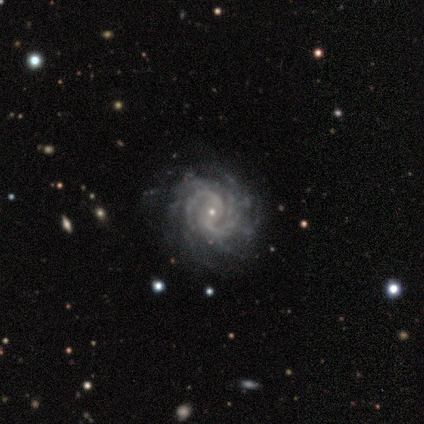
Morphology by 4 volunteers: A featured or disk galaxy (100%) with no bar (75%), 2 (100%) medium (100%) spiral arms (100%) and a small central bulge (50%). Merging: none (100%).